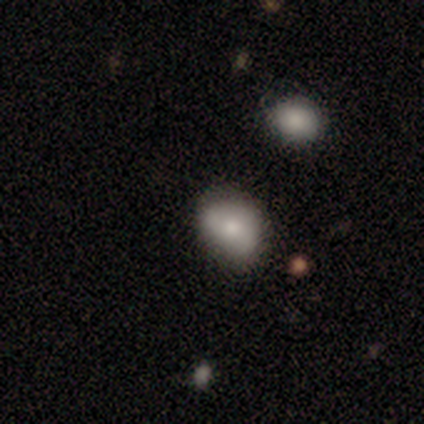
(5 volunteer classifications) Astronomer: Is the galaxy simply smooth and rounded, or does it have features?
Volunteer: smooth — 80%.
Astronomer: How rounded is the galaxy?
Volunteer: in between — 75%.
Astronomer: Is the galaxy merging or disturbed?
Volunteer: none — 80%.